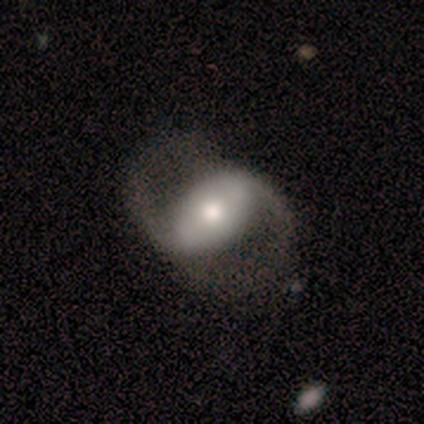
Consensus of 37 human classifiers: smooth_or_featured: featured or disk (p=0.81) [alt: smooth p=0.16]
disk_edge_on: no (p=1.00)
bar: strong (p=0.50) [alt: no p=0.37]
has_spiral_arms: yes (p=0.80) [alt: no p=0.20]
spiral_winding: loose (p=0.58) [alt: medium p=0.42]
spiral_arm_count: 2 (p=1.00)
bulge_size: moderate (p=0.67) [alt: large p=0.20]
merging: none (p=0.50) [alt: major disturbance p=0.22]